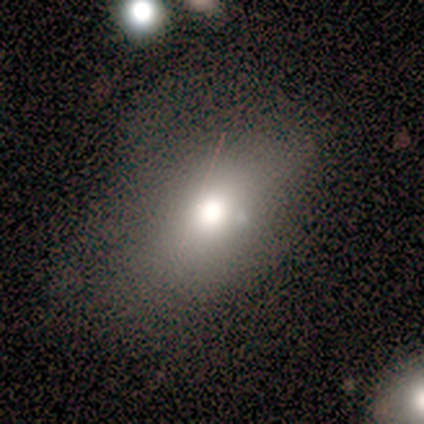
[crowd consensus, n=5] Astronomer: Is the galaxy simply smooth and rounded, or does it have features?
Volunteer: smooth — 80%.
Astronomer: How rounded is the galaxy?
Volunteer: in between — 75%.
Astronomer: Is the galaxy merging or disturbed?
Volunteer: none — 75%.